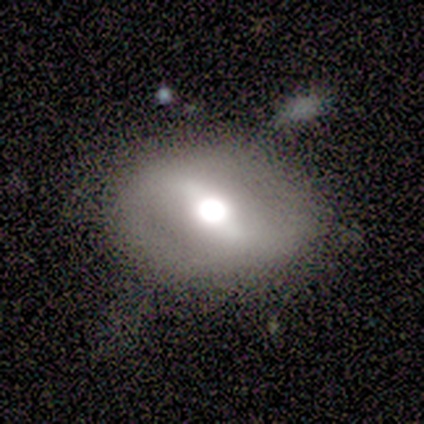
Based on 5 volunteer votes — Overall: featured or disk (60%; smooth 40%). Edge-on disk: no (100%). Bar: weak (67%; no 33%). Spiral arms: yes (67%; no 33%). Spiral arm count: 2 (100%). Spiral winding: loose (100%). Bulge size: large (67%; dominant 33%). Merging: none (100%).